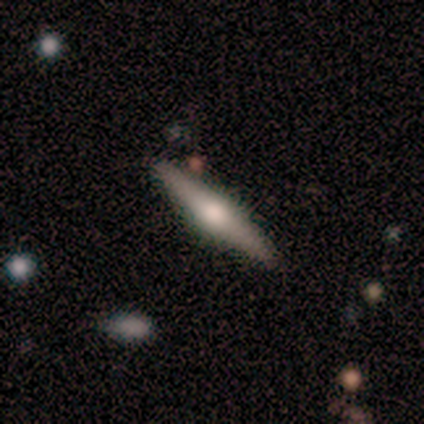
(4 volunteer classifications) This is likely a smooth galaxy (75%). How rounded: clearly cigar-shaped (100%). Merging: clearly none (100%).